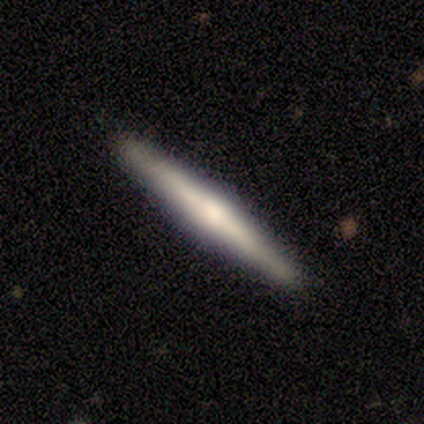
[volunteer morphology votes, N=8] Smooth or featured? 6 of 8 (75%) said featured or disk. Edge-on disk? 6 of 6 (100%) said yes. Edge-on bulge? 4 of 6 (67%) said rounded. Merging? 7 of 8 (88%) said none.